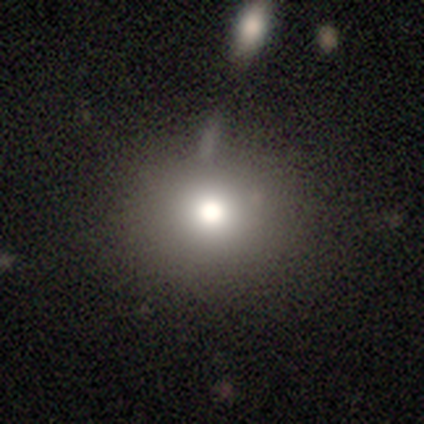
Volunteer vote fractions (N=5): smooth 80%, star or artifact 20%, featured or disk 0%. Down the decision tree: how rounded — round (75%); merging — none (75%).